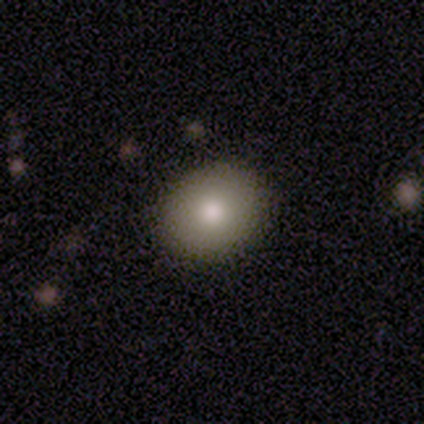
This appears to be a smooth galaxy with no disk features (80%) that is round (75%). Merging: none (60%).